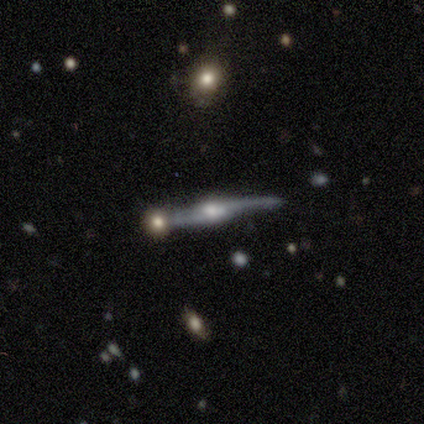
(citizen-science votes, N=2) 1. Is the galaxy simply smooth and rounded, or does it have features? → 100% featured or disk, 0% smooth, 0% star or artifact.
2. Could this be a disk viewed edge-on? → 50% yes (tied), 50% no (tied).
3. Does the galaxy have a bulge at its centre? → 100% rounded, 0% boxy, 0% none.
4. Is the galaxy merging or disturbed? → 50% none (tied), 50% minor disturbance (tied), 0% major disturbance, 0% merger.